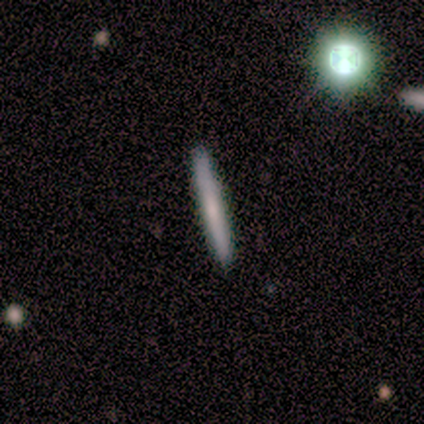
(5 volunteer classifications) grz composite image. It shows a featured or disk galaxy (60%) viewed edge-on (100%) with no central bulge (100%). Merging: none (100%).